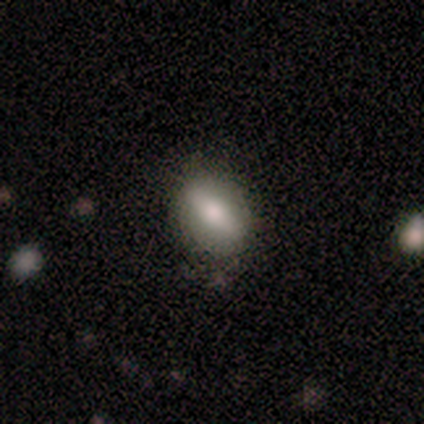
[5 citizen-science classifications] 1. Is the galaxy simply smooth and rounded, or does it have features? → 80% smooth, 20% featured or disk, 0% star or artifact.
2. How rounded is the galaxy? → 75% in between, 25% round, 0% cigar-shaped.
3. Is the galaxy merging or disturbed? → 60% none, 40% minor disturbance, 0% major disturbance, 0% merger.